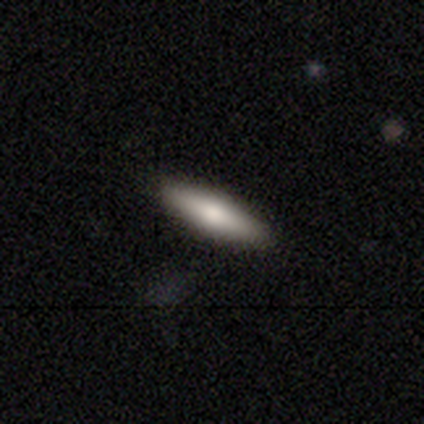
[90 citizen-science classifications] smooth-or-featured: smooth: 73% | featured or disk: 22% | star or artifact: 4%
  how-rounded: cigar-shaped: 80% | in between: 20% | round: 0%
  merging: none: 92% | minor disturbance: 5% | major disturbance: 3% | merger: 0%